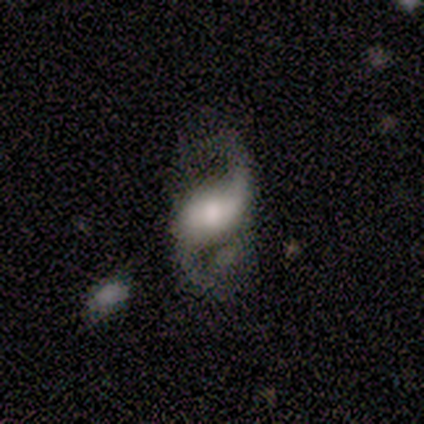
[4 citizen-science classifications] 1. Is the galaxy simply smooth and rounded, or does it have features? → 100% featured or disk, 0% smooth, 0% star or artifact.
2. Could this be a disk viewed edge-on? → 100% no, 0% yes.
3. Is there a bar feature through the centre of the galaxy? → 50% weak, 25% strong, 25% no.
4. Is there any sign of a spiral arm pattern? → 100% yes, 0% no.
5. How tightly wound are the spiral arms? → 100% loose, 0% tight, 0% medium.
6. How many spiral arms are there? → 100% 2, 0% 1, 0% 3, 0% 4, 0% more than 4, 0% can't tell.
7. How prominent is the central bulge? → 75% moderate, 25% none, 0% dominant, 0% large, 0% small.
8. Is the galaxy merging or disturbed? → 75% minor disturbance, 25% none, 0% major disturbance, 0% merger.